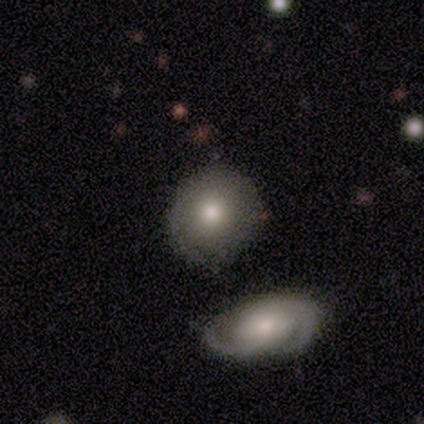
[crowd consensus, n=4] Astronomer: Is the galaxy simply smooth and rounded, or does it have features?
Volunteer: smooth — 75%.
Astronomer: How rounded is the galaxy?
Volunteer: round — 100%.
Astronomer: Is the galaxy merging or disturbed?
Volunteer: none — 75%.